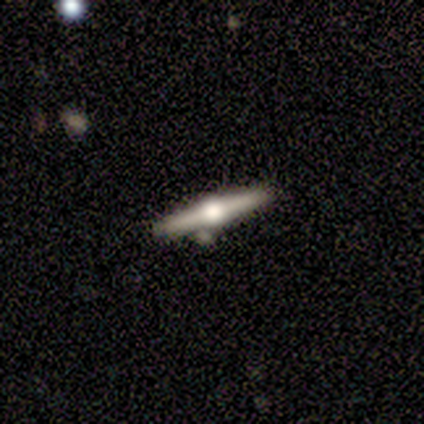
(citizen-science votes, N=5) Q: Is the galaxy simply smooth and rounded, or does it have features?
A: featured or disk — 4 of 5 (80%).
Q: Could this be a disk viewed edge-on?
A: yes — 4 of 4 (100%).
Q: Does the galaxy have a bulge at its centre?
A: rounded — 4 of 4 (100%).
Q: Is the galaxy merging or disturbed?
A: none — 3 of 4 (75%).